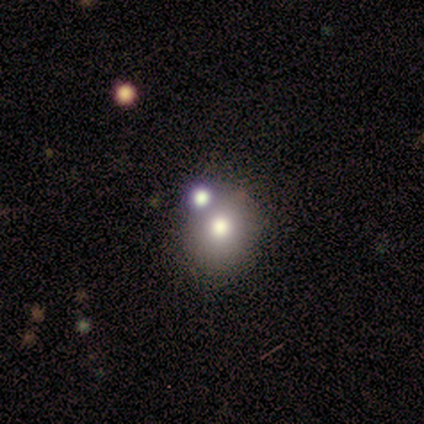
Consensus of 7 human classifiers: Morphology: type=smooth (71%); roundness=round (100%); merging=none (83%).